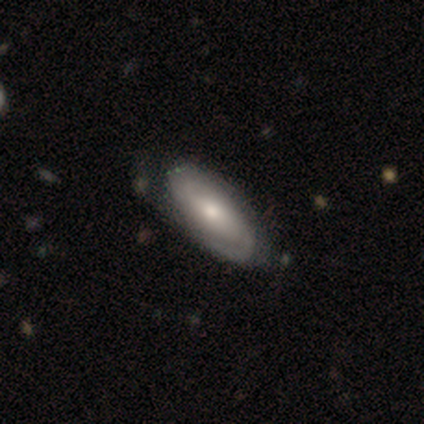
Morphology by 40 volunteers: Smooth or featured? featured or disk (65%)
Edge-on disk? no (92%)
Bar? no (58%)
Spiral arms? yes (79%)
Spiral winding? tight (47%)
Spiral arm count? 2 (74%)
Bulge size? moderate (67%)
Merging? none (50%)